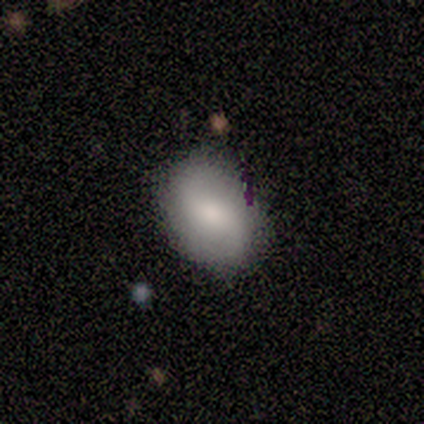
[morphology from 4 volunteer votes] A smooth galaxy with no disk features (75%) that is in between round and cigar-shaped (100%).

Vote fractions:
- Smooth or featured? smooth: 75% / featured or disk: 25% / star or artifact: 0%
- How rounded? in between: 100% / round: 0% / cigar-shaped: 0%
- Merging? none: 50% (tied) / minor disturbance: 50% (tied) / major disturbance: 0% / merger: 0%